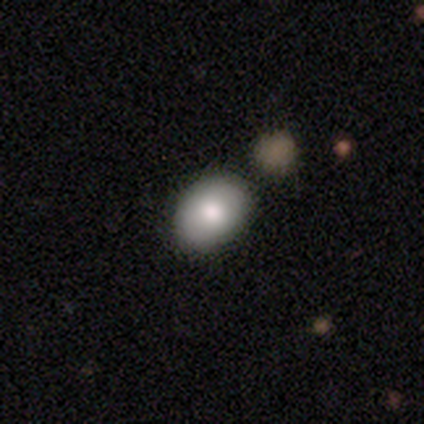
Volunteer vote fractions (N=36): A smooth galaxy with no disk features (75%) that is in between round and cigar-shaped (63%). Merging: none (49%).